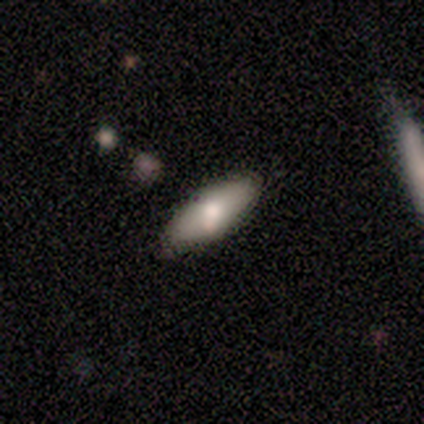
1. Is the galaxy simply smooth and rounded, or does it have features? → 67% smooth, 33% featured or disk, 0% star or artifact.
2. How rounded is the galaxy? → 100% in between, 0% round, 0% cigar-shaped.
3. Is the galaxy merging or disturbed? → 100% none, 0% minor disturbance, 0% major disturbance, 0% merger.